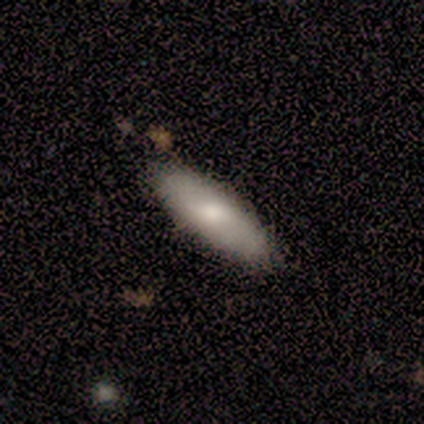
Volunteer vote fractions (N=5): Q: Smooth or featured?
A: featured or disk (60%); runner-up: smooth (40%)
Q: Edge-on disk?
A: yes (67%); runner-up: no (33%)
Q: Edge-on bulge?
A: rounded (100%)
Q: Merging?
A: none (100%)